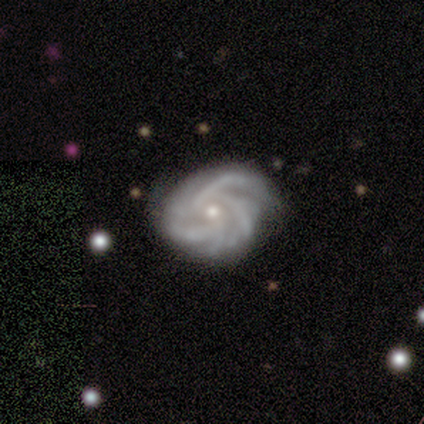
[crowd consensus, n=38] Q: Smooth or featured?
A: featured or disk (97%); runner-up: smooth (3%)
Q: Edge-on disk?
A: no (100%)
Q: Bar?
A: no (81%); runner-up: weak (16%)
Q: Spiral arms?
A: yes (97%); runner-up: no (3%)
Q: Spiral winding?
A: tight (47%); tied with: medium (47%)
Q: Spiral arm count?
A: 3 (33%); runner-up: 4 (28%)
Q: Bulge size?
A: moderate (59%); runner-up: small (41%)
Q: Merging?
A: none (50%); runner-up: minor disturbance (24%)